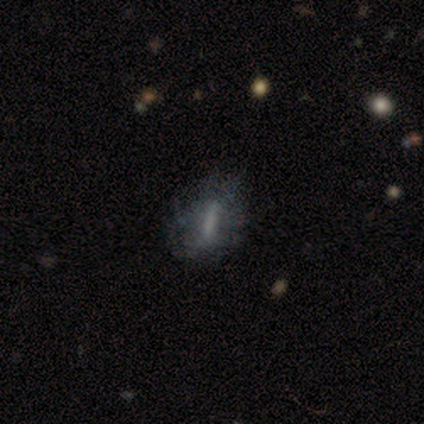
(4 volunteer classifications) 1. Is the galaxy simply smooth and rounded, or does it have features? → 100% featured or disk, 0% smooth, 0% star or artifact.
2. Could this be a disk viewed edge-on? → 100% no, 0% yes.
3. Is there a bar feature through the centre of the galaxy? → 50% no, 25% strong, 25% weak.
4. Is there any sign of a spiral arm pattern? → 100% no, 0% yes.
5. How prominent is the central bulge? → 75% none, 25% moderate, 0% dominant, 0% large, 0% small.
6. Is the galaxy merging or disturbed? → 50% minor disturbance (tied), 50% major disturbance (tied), 0% none, 0% merger.